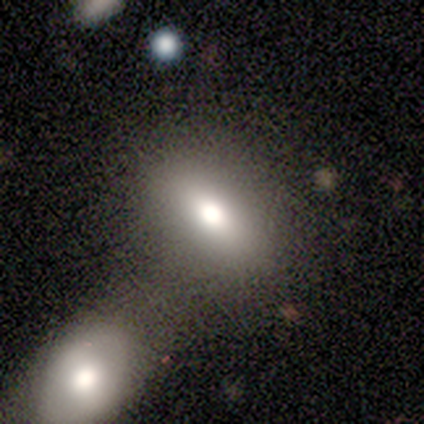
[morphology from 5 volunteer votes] A smooth galaxy with no disk features (100%) that is in between round and cigar-shaped (80%).

Vote fractions:
- Smooth or featured? smooth: 100% / featured or disk: 0% / star or artifact: 0%
- How rounded? in between: 80% / cigar-shaped: 20% / round: 0%
- Merging? none: 60% / minor disturbance: 20% / merger: 20% / major disturbance: 0%